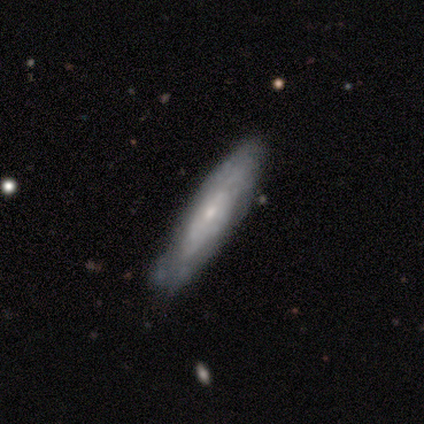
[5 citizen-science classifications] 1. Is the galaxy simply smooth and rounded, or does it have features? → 60% smooth, 40% featured or disk, 0% star or artifact.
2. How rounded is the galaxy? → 100% cigar-shaped, 0% round, 0% in between.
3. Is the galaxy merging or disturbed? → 80% none, 20% minor disturbance, 0% major disturbance, 0% merger.